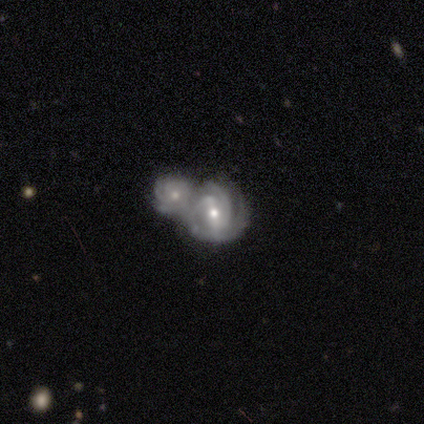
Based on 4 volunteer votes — smooth-or-featured: featured or disk: 75% | star or artifact: 25% | smooth: 0%
  disk-edge-on: no: 100% | yes: 0%
    bar: strong: 33% (tied) | weak: 33% (tied) | no: 33% (tied)
    has-spiral-arms: yes: 100% | no: 0%
      spiral-winding: tight: 67% | medium: 33% | loose: 0%
      spiral-arm-count: 3: 100% | 1: 0% | 2: 0% | 4: 0% | more than 4: 0% | can't tell: 0%
    bulge-size: moderate: 67% | small: 33% | dominant: 0% | large: 0% | none: 0%
  merging: none: 33% (tied) | minor disturbance: 33% (tied) | merger: 33% (tied) | major disturbance: 0%